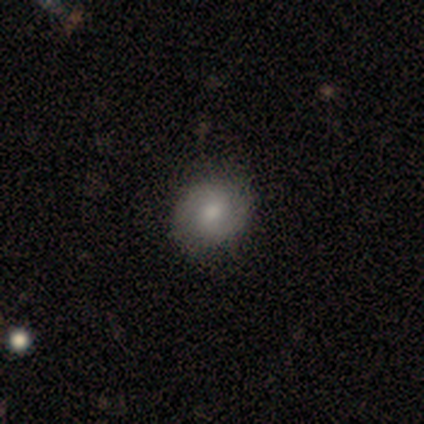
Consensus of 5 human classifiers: featured or disk 40% (tied), star or artifact 40% (tied), smooth 20%. Down the decision tree: edge-on disk — no (100%); bar — weak (50%, tied with no); spiral arms — yes (100%); spiral arm count — 2 (100%); spiral winding — tight (100%); bulge size — moderate (100%); merging — none (100%).